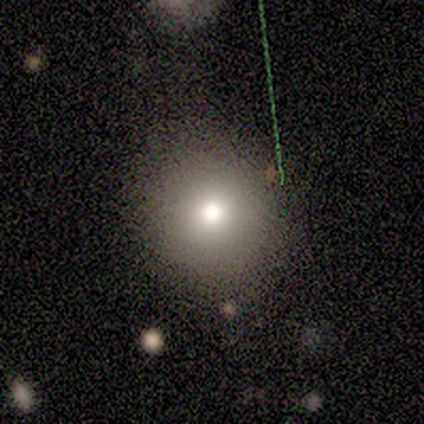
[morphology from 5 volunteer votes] This is marginally a smooth galaxy (40%, tied with featured or disk). How rounded: clearly round (100%). Merging: clearly none (100%).